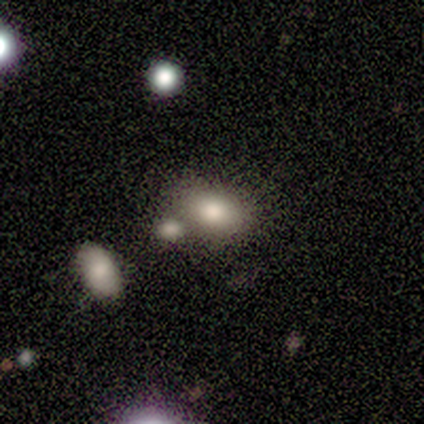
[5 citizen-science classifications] Smooth or featured? smooth (80%)
How rounded? in between (100%)
Merging? none (50%)